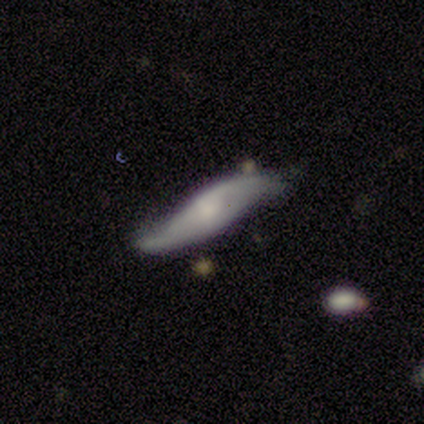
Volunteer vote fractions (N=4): Smooth or featured? 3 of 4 (75%) said featured or disk. Edge-on disk? 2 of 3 (67%) said yes. Edge-on bulge? 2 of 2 (100%) said rounded. Merging? 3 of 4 (75%) said none.